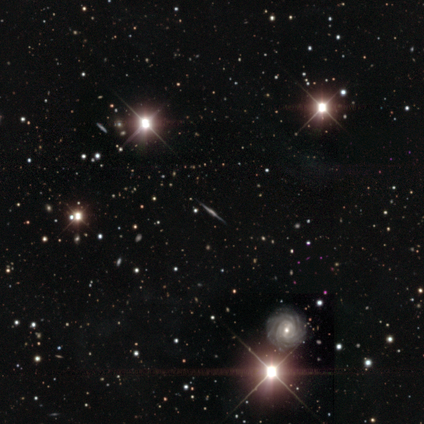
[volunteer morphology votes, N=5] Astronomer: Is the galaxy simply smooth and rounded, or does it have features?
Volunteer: featured or disk — 60% (runner-up: star or artifact, 40%).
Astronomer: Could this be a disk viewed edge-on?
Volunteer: yes — 100%.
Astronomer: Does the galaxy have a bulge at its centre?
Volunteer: boxy — 100%.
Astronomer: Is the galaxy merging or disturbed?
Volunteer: none — 67%.